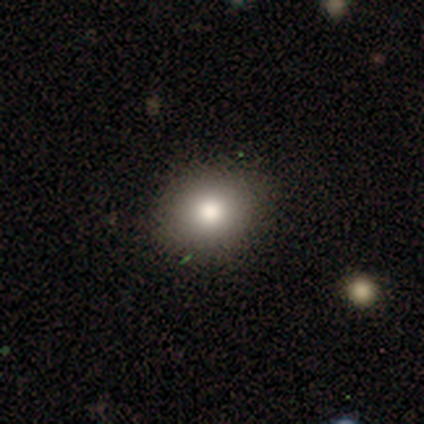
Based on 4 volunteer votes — Smooth or featured: smooth — 50% (featured or disk — 25%)
How rounded: round — 50% (tied with in between — 50%)
Merging: none — 100%